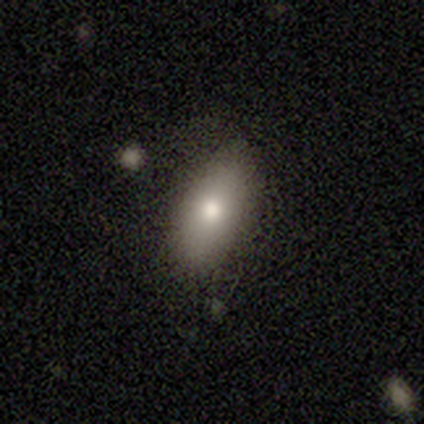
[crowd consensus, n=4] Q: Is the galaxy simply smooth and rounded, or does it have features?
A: smooth — 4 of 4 (100%).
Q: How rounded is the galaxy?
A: in between — 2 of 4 (50%, tied with cigar-shaped).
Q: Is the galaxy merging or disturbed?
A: none — 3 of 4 (75%).